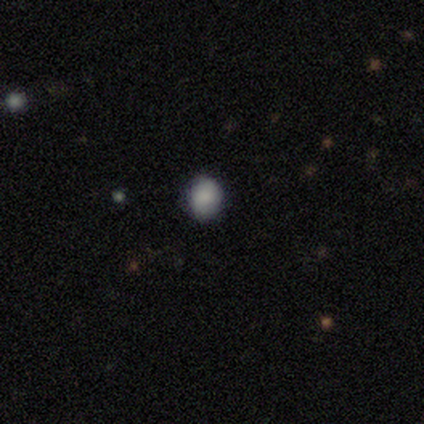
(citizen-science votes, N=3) Smooth or featured?
  - smooth: 67% *
  - star or artifact: 33%
  - featured or disk: 0%
How rounded?
  - round: 100% *
  - in between: 0%
  - cigar-shaped: 0%
Merging?
  - none: 50% * (tied)
  - minor disturbance: 50% * (tied)
  - major disturbance: 0%
  - merger: 0%